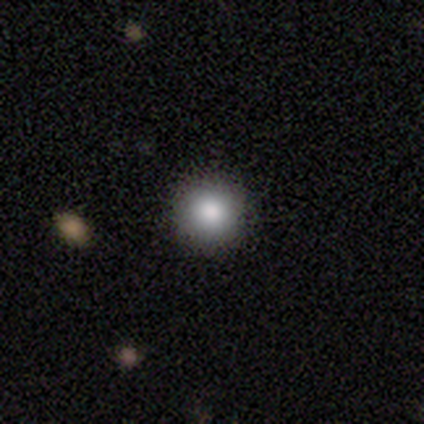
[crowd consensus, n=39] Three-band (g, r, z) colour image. It shows a smooth galaxy with no disk features (82%) that is round (100%). Merging: none (94%).